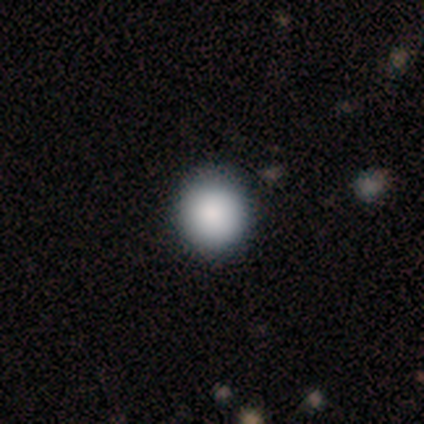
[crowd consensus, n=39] smooth 92%, featured or disk 5%, star or artifact 3%. Down the decision tree: how rounded — round (100%); merging — none (58%).